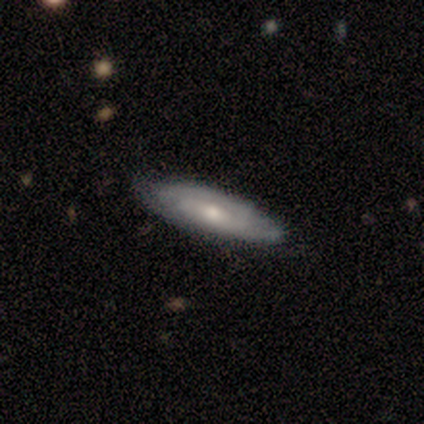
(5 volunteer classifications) This is likely a smooth galaxy (60%). How rounded: likely in between (67%). Merging: clearly none (80%).